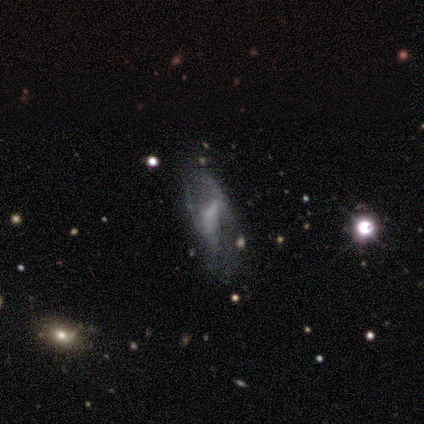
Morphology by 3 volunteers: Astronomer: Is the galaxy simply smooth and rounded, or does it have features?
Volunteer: featured or disk — 100%.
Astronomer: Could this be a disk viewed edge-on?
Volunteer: no — 100%.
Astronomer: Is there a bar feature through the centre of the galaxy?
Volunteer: weak — 67%.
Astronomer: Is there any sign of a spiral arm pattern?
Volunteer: no — 67%.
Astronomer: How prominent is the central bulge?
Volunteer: moderate — 33%, tied with small and none at 33%.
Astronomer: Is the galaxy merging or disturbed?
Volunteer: major disturbance — 100%.